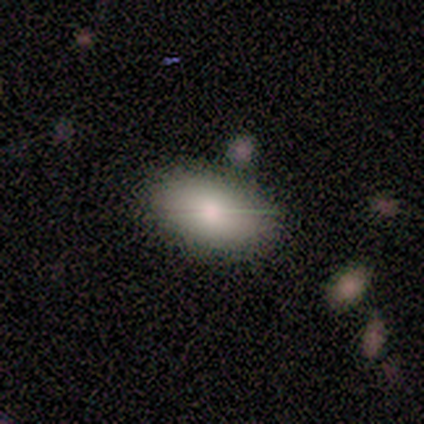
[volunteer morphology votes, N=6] Smooth or featured: featured or disk — 50% (smooth — 33%)
Edge-on disk: no — 67% (yes — 33%)
Bar: weak — 50% (tied with no — 50%)
Spiral arms: no — 100%
Bulge size: moderate — 100%
Merging: none — 80% (minor disturbance — 20%)